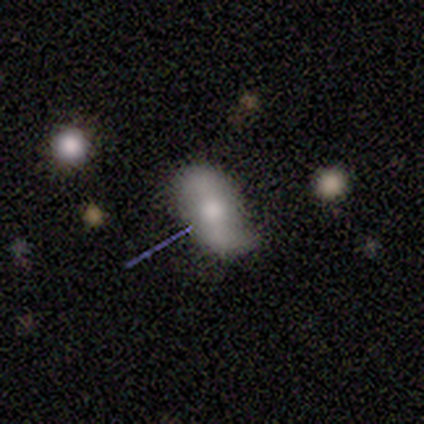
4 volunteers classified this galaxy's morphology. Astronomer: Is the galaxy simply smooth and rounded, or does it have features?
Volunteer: smooth — 75%.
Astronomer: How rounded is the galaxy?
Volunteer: in between — 100%.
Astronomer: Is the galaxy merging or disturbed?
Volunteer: none — 75%.